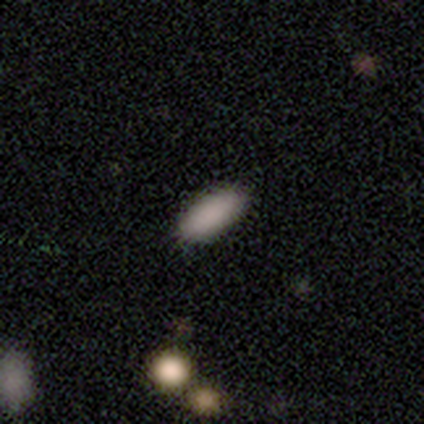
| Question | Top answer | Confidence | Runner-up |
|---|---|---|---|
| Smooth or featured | smooth | 50% | featured or disk (25%) |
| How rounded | in between | 50% | tied: cigar-shaped (50%) |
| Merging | minor disturbance | 67% | none (33%) |